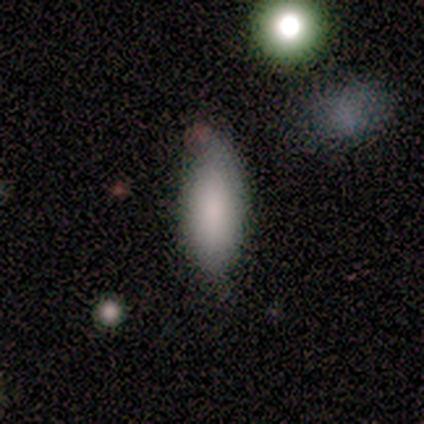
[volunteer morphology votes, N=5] type=smooth (80%); roundness=in between (75%); merging=none (100%).